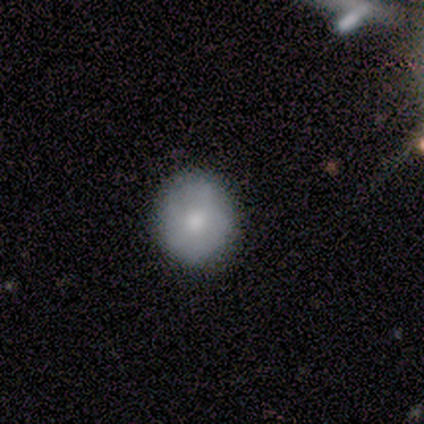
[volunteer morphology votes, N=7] Volunteers were most divided on "smooth or featured": smooth: 71%, featured or disk: 29%, star or artifact: 0%. More confident: how rounded — round (100%); merging — none (100%).